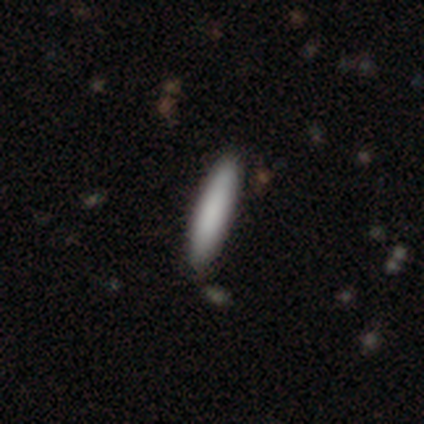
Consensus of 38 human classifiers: Q: Smooth or featured?
A: smooth (89%); runner-up: featured or disk (11%)
Q: How rounded?
A: cigar-shaped (97%); runner-up: in between (3%)
Q: Merging?
A: none (92%); runner-up: minor disturbance (3%)